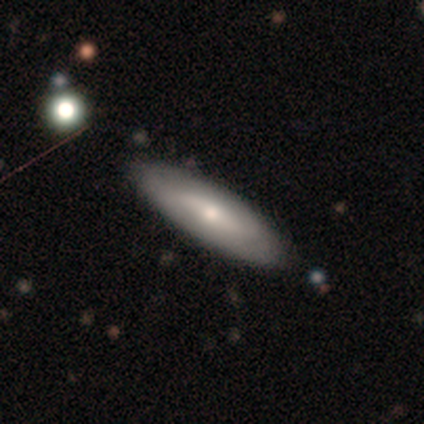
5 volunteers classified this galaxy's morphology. Smooth or featured: featured or disk — 60% (smooth — 40%)
Edge-on disk: no — 67% (yes — 33%)
Bar: strong — 50% (tied with weak — 50%)
Spiral arms: yes — 50% (tied with no — 50%)
Spiral winding: loose — 100%
Spiral arm count: 2 — 100%
Bulge size: small — 100%
Merging: none — 80% (minor disturbance — 20%)